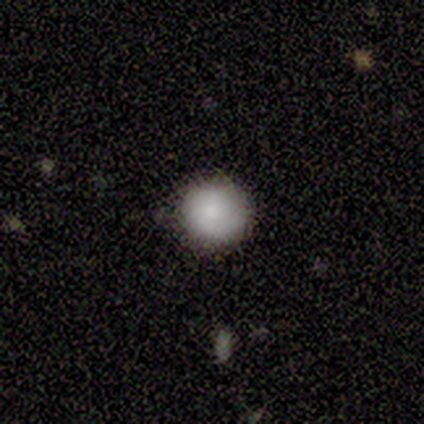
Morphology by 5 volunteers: This appears to be a smooth galaxy with no disk features (80%) that is round (100%). Merging: none (100%).